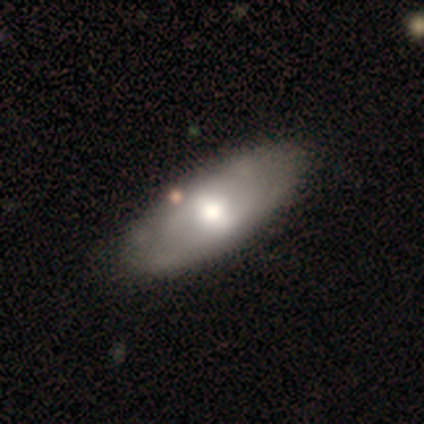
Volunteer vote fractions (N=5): Morphology: type=smooth (40%, tied with featured or disk); roundness=in between (100%); merging=none (75%).